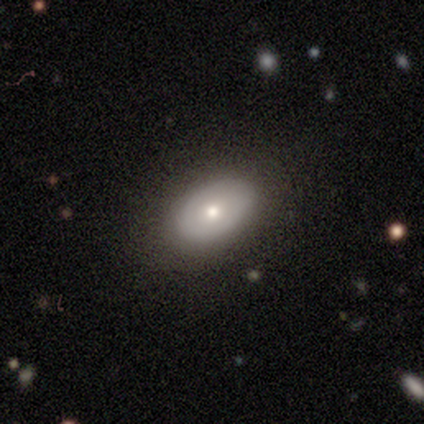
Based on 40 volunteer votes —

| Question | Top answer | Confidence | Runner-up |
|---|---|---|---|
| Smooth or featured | smooth | 50% | featured or disk (38%) |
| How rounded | in between | 100% | — |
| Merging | none | 91% | major disturbance (6%) |